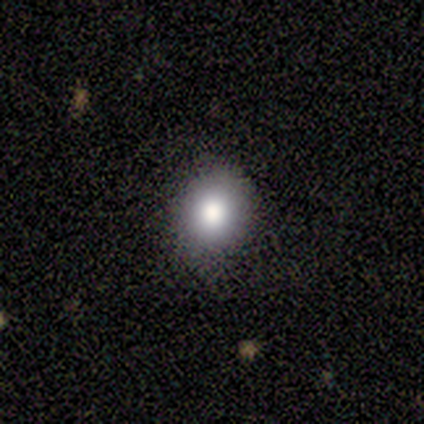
Q: Smooth or featured?
A: smooth (100%)
Q: How rounded?
A: round (60%); runner-up: in between (40%)
Q: Merging?
A: none (80%); runner-up: minor disturbance (20%)